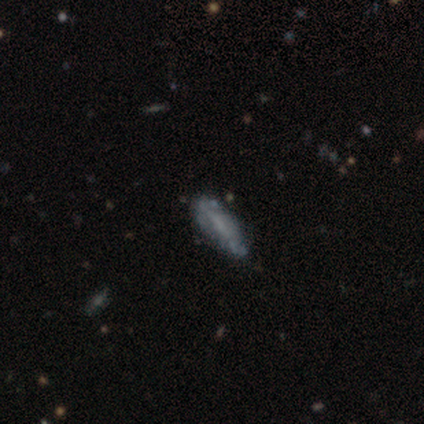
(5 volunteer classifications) Smooth or featured? 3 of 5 (60%) said featured or disk. Edge-on disk? 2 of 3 (67%) said no. Bar? 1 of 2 (50%, tied with no) said weak. Spiral arms? 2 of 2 (100%) said no. Bulge size? 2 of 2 (100%) said small. Merging? 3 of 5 (60%) said none.